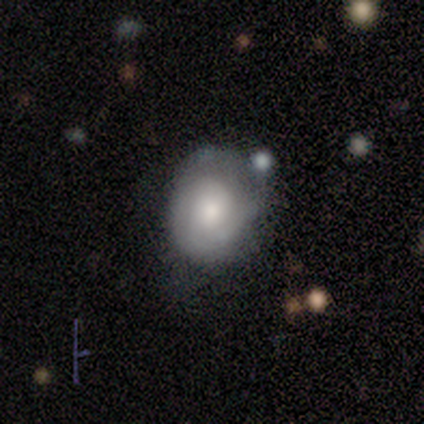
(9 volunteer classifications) Smooth or featured? smooth (56%)
How rounded? round (60%)
Merging? none (56%)